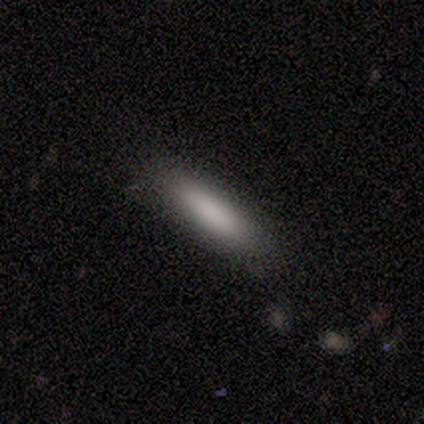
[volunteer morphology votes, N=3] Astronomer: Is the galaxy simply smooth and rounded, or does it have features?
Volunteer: smooth — 100%.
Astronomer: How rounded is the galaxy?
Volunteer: in between — 67%.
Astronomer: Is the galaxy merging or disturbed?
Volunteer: none — 100%.